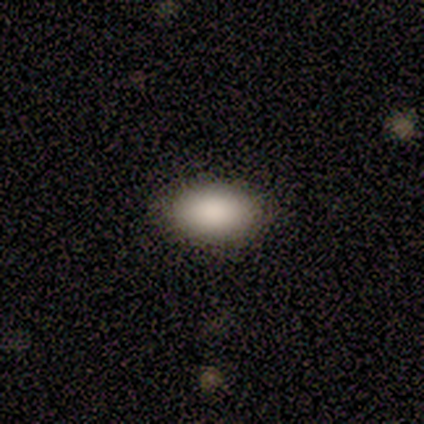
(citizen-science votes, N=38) smooth 87%, star or artifact 8%, featured or disk 5%. Down the decision tree: how rounded — in between (91%); merging — none (74%).